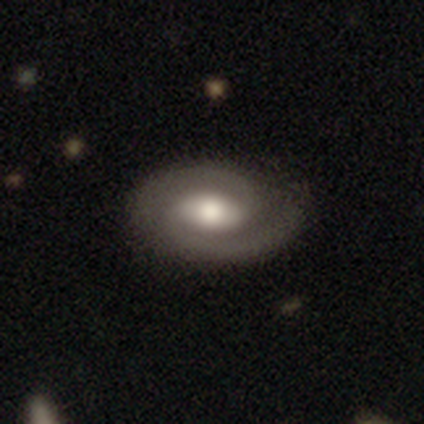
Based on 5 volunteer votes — Q: Smooth or featured?
A: featured or disk (100%)
Q: Edge-on disk?
A: no (100%)
Q: Bar?
A: strong (40%); tied with: weak (40%)
Q: Spiral arms?
A: yes (100%)
Q: Spiral winding?
A: tight (40%); tied with: medium (40%)
Q: Spiral arm count?
A: 2 (100%)
Q: Bulge size?
A: moderate (60%); runner-up: large (20%)
Q: Merging?
A: none (100%)